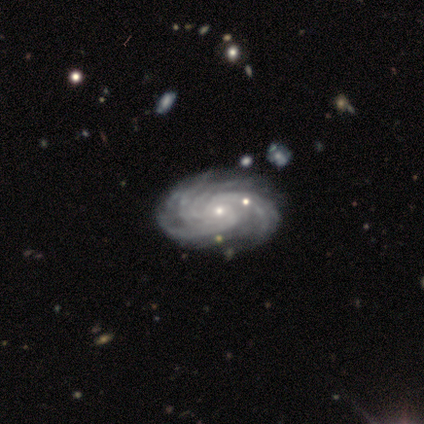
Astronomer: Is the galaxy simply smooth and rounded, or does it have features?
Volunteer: featured or disk — 50%.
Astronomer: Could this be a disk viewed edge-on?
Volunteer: no — 100%.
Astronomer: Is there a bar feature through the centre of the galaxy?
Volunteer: weak — 50%, tied with no at 50%.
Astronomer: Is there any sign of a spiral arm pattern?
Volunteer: yes — 100%.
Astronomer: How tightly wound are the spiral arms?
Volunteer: tight — 50%, tied with medium at 50%.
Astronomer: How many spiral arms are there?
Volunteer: more than 4 — 100%.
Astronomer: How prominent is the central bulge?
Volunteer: moderate — 50%, tied with small at 50%.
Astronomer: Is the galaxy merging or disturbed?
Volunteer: none — 67%.